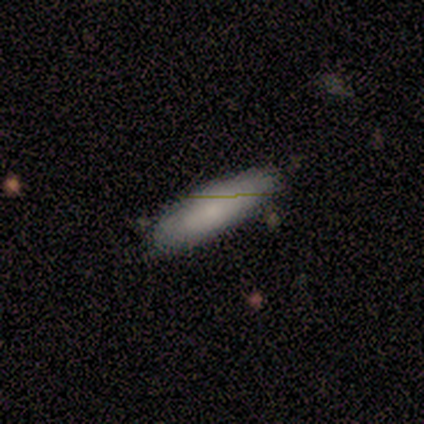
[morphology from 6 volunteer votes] Overall: smooth (83%). How rounded: cigar-shaped (80%). Merging: none (83%).